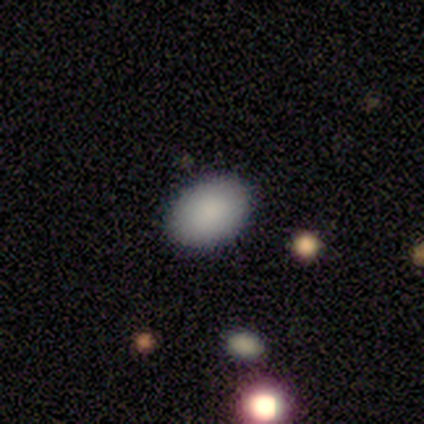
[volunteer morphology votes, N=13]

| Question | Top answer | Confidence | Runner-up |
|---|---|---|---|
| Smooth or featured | smooth | 100% | — |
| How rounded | in between | 100% | — |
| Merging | none | 100% | — |